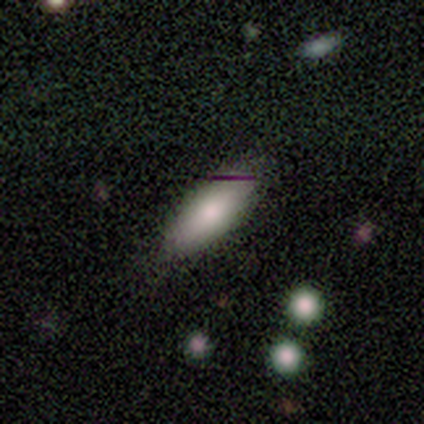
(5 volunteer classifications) Volunteers were most divided on "how rounded": in between: 75%, cigar-shaped: 25%, round: 0%. More confident: merging — none (100%); smooth or featured — smooth (80%).